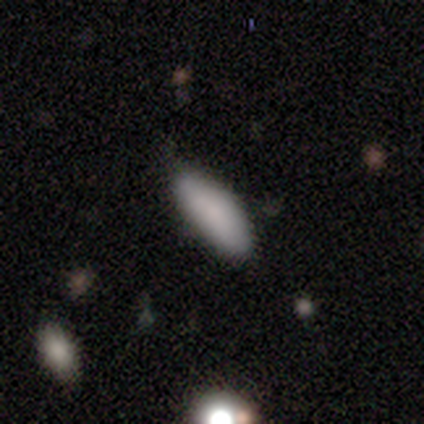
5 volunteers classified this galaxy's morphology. Smooth or featured: smooth — 80% (star or artifact — 20%)
How rounded: in between — 50% (tied with cigar-shaped — 50%)
Merging: none — 100%